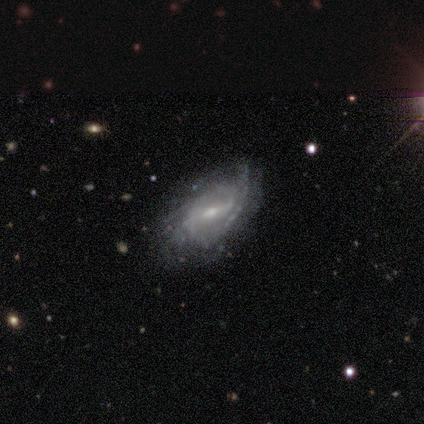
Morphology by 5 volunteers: This appears to be a featured or disk galaxy (80%) with a weak bar (75%), 2 (33%, tied with 3 and can't tell) tight (67%) spiral arms (75%) and a small central bulge (100%). Merging: none (50%).